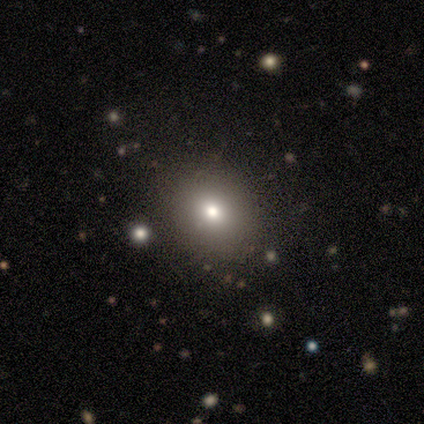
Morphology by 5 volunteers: Volunteers were most divided on "smooth or featured": smooth: 60%, featured or disk: 40%, star or artifact: 0%. More confident: how rounded — round (100%); merging — none (60%).